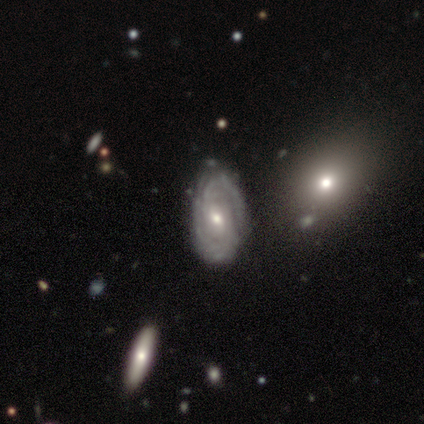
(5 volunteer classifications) Smooth or featured?
  - featured or disk: 100% *
  - smooth: 0%
  - star or artifact: 0%
Edge-on disk?
  - no: 100% *
  - yes: 0%
Bar?
  - strong: 40% * (tied)
  - weak: 40% * (tied)
  - no: 20%
Spiral arms?
  - yes: 100% *
  - no: 0%
Spiral winding?
  - tight: 60% *
  - medium: 40%
  - loose: 0%
Spiral arm count?
  - 2: 80% *
  - 4: 20%
  - 1: 0%
  - 3: 0%
  - more than 4: 0%
  - can't tell: 0%
Bulge size?
  - moderate: 60% *
  - small: 40%
  - dominant: 0%
  - large: 0%
  - none: 0%
Merging?
  - none: 100% *
  - minor disturbance: 0%
  - major disturbance: 0%
  - merger: 0%